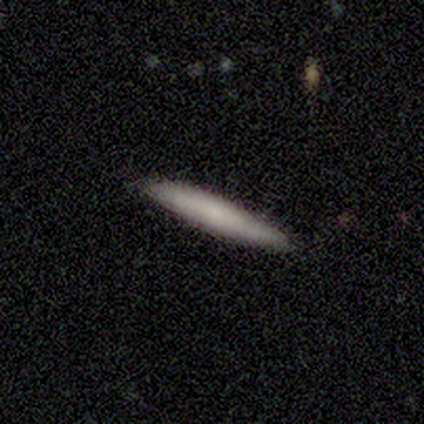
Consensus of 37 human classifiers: Volunteers were most divided on "smooth or featured": smooth: 68%, featured or disk: 24%, star or artifact: 8%. More confident: how rounded — cigar-shaped (96%); merging — none (82%).